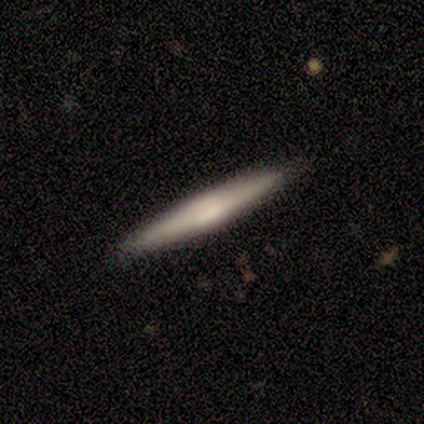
smooth-or-featured: featured or disk: 80% | smooth: 20% | star or artifact: 0%
  disk-edge-on: yes: 100% | no: 0%
    edge-on-bulge: rounded: 75% | none: 25% | boxy: 0%
  merging: none: 80% | minor disturbance: 20% | major disturbance: 0% | merger: 0%